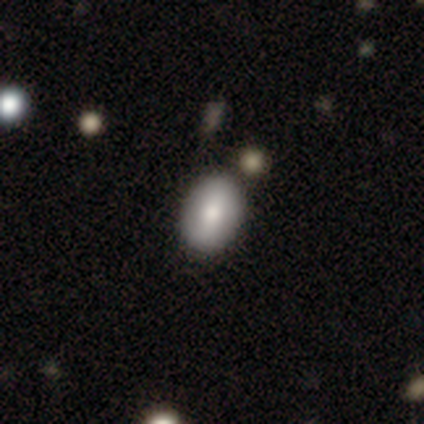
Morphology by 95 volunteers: Smooth or featured: smooth — 82% (featured or disk — 15%)
How rounded: in between — 83% (round — 17%)
Merging: none — 85% (minor disturbance — 8%)